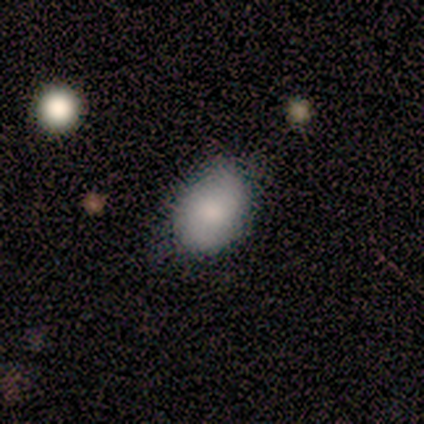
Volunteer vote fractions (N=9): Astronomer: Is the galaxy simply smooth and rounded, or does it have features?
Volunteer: smooth — 89%.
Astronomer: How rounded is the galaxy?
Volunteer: in between — 100%.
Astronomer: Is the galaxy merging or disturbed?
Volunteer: minor disturbance — 56% (runner-up: none, 44%).